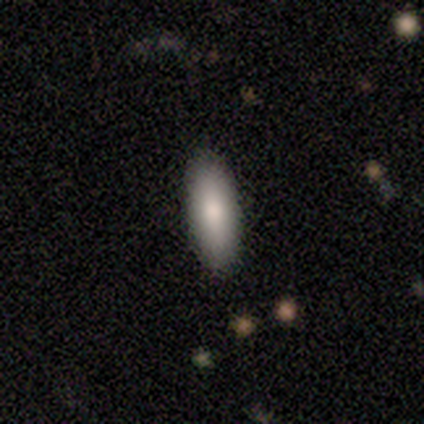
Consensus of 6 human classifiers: Smooth or featured?
  - smooth: 83% *
  - featured or disk: 17%
  - star or artifact: 0%
How rounded?
  - in between: 60% *
  - cigar-shaped: 40%
  - round: 0%
Merging?
  - none: 100% *
  - minor disturbance: 0%
  - major disturbance: 0%
  - merger: 0%